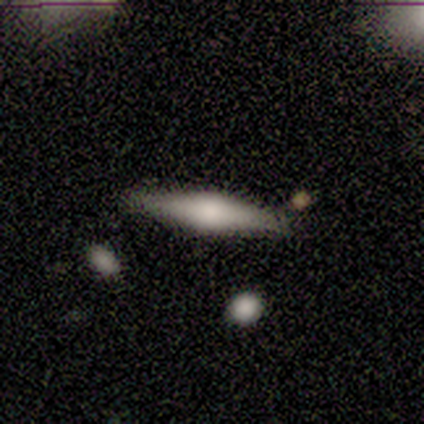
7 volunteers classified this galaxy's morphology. Smooth or featured?
  - featured or disk: 57% *
  - smooth: 43%
  - star or artifact: 0%
Edge-on disk?
  - yes: 100% *
  - no: 0%
Edge-on bulge?
  - rounded: 100% *
  - boxy: 0%
  - none: 0%
Merging?
  - none: 86% *
  - major disturbance: 14%
  - minor disturbance: 0%
  - merger: 0%